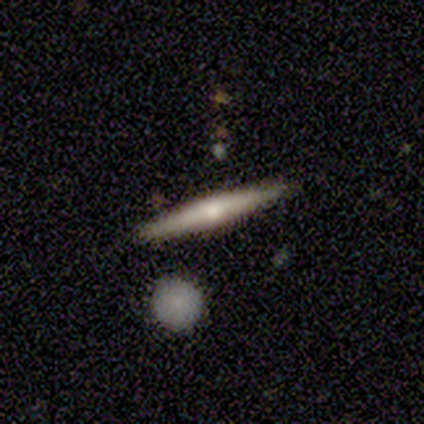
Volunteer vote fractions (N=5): smooth_or_featured: featured or disk (p=1.00)
disk_edge_on: yes (p=1.00)
edge_on_bulge: rounded (p=0.80) [alt: none p=0.20]
merging: none (p=1.00)